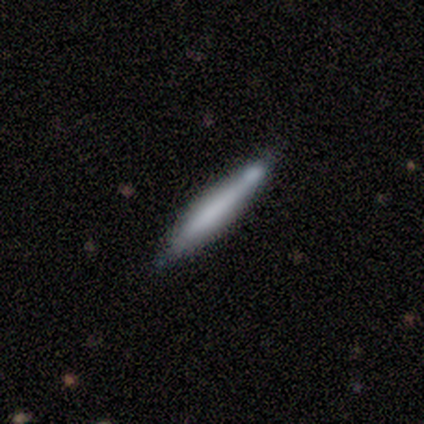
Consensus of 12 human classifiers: This appears to be a smooth galaxy with no disk features (50%) that is cigar-shaped (100%). Merging: none (82%).